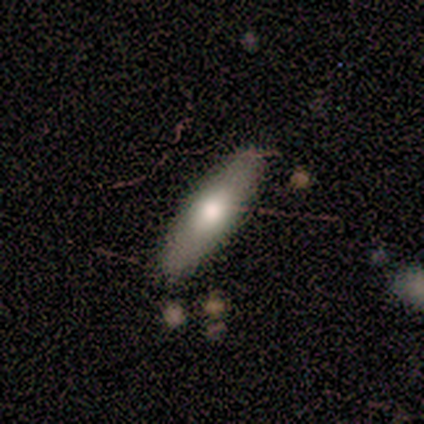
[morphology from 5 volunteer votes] smooth 60%, featured or disk 20%, star or artifact 20%. Down the decision tree: how rounded — cigar-shaped (100%); merging — none (100%).